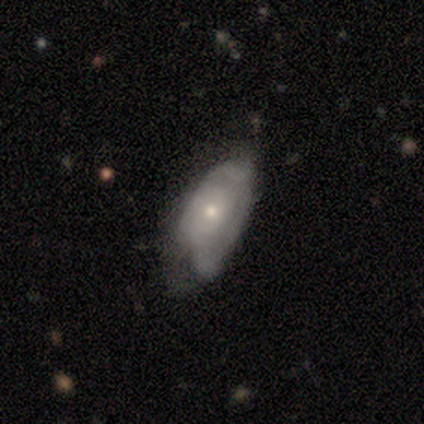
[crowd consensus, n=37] Smooth or featured? smooth (49%)
How rounded? in between (83%)
Merging? none (46%)